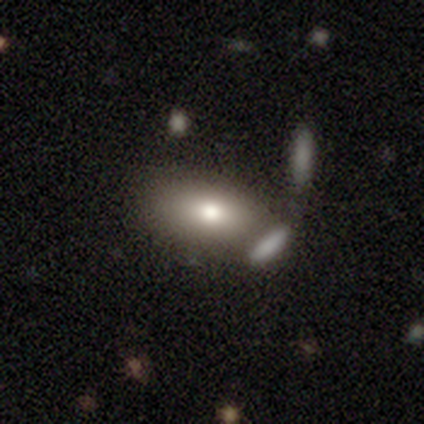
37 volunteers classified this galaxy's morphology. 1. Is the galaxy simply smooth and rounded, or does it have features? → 73% smooth, 19% featured or disk, 8% star or artifact.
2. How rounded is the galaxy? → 85% in between, 7% round, 7% cigar-shaped.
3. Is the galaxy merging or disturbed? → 59% none, 18% minor disturbance, 18% merger, 6% major disturbance.